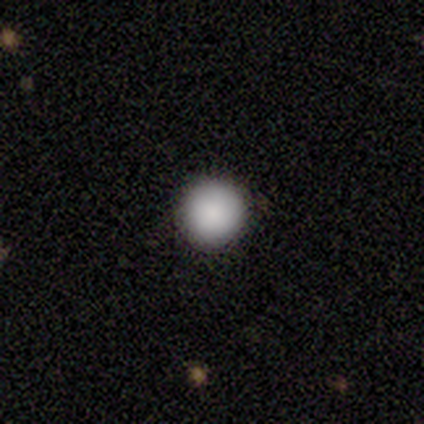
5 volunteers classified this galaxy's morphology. type=smooth (60%); roundness=round (100%); merging=none (100%).